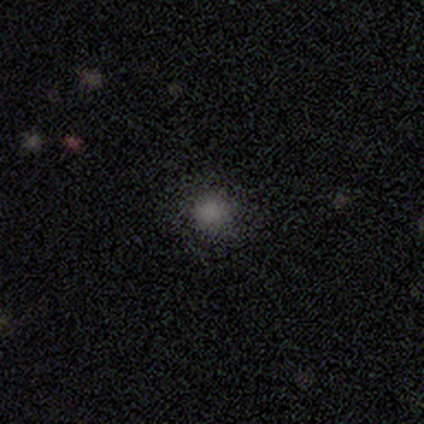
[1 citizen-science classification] smooth 100%, featured or disk 0%, star or artifact 0%. Down the decision tree: how rounded — round (100%); merging — merger (100%).